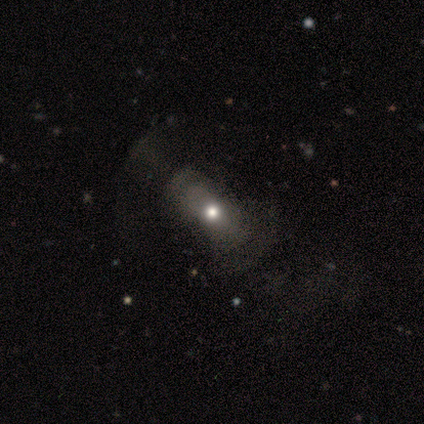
A star or artifact, not a galaxy (60%).